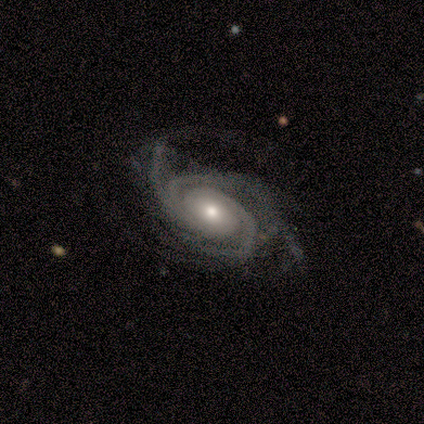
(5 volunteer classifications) This appears to be a featured or disk galaxy (100%) with no bar (60%), 3 (60%) tight (60%) spiral arms (100%) and a moderate central bulge (80%). Merging: none (60%).